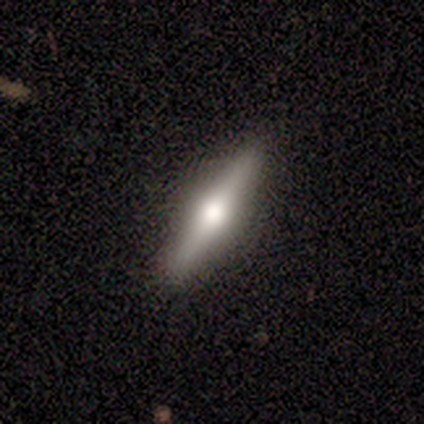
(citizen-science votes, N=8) Smooth or featured: smooth — 75% (featured or disk — 25%)
How rounded: cigar-shaped — 83% (in between — 17%)
Merging: none — 88% (minor disturbance — 12%)